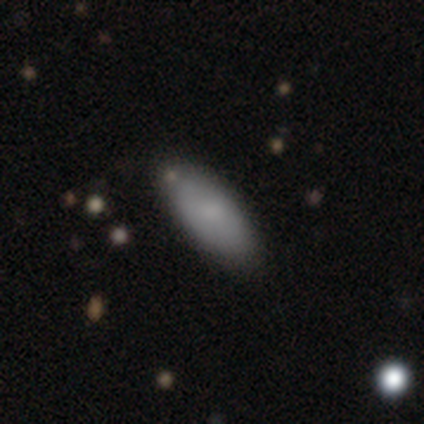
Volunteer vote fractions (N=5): smooth_or_featured: smooth (p=1.00)
how_rounded: in between (p=0.80) [alt: cigar-shaped p=0.20]
merging: none (p=1.00)